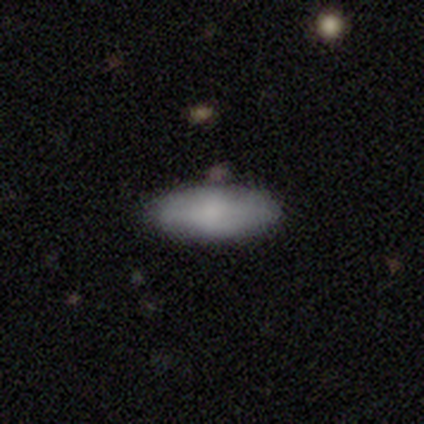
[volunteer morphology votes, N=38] This is likely a smooth galaxy (74%). How rounded: likely in between (79%). Merging: clearly none (94%).